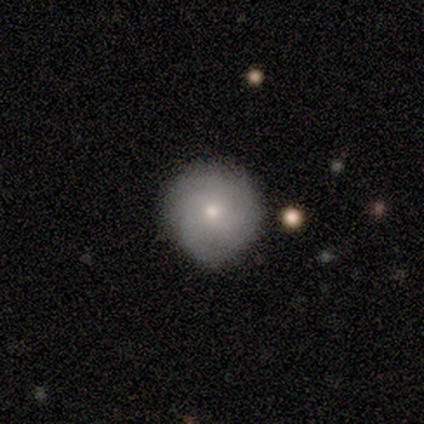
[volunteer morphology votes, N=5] smooth-or-featured: featured or disk: 60% | smooth: 40% | star or artifact: 0%
  disk-edge-on: no: 100% | yes: 0%
    bar: no: 67% | weak: 33% | strong: 0%
    has-spiral-arms: yes: 100% | no: 0%
      spiral-winding: tight: 67% | loose: 33% | medium: 0%
      spiral-arm-count: can't tell: 67% | 4: 33% | 1: 0% | 2: 0% | 3: 0% | more than 4: 0%
    bulge-size: moderate: 67% | small: 33% | dominant: 0% | large: 0% | none: 0%
  merging: none: 100% | minor disturbance: 0% | major disturbance: 0% | merger: 0%